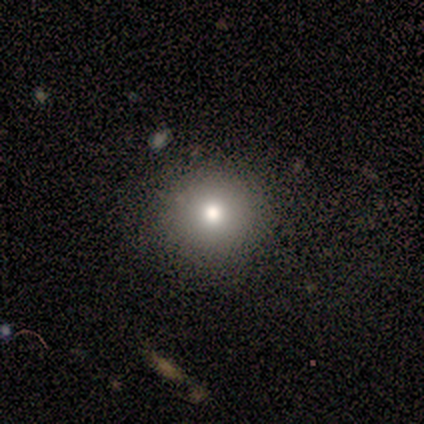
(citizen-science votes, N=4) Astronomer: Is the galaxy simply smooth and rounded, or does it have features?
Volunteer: featured or disk — 50%, tied with star or artifact at 50%.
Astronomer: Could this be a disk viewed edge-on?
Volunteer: no — 100%.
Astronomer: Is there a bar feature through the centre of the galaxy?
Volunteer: no — 100%.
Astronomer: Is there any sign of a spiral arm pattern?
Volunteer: no — 100%.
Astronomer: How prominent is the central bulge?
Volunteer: moderate — 100%.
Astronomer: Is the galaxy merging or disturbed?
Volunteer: none — 100%.